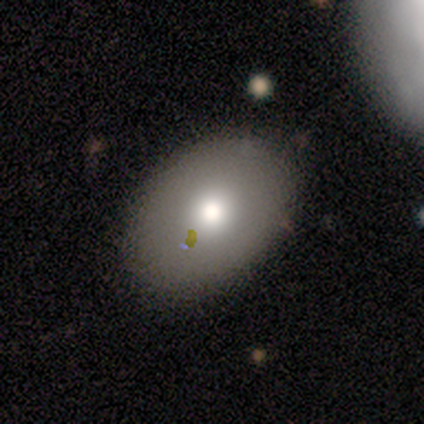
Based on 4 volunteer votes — Smooth or featured? 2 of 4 (50%) said smooth. How rounded? 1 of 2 (50%, tied with in between) said round. Merging? 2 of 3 (67%) said none.